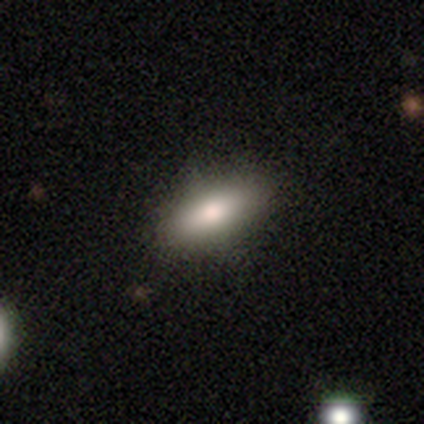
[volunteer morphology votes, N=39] smooth 77%, featured or disk 21%, star or artifact 3%. Down the decision tree: how rounded — in between (83%); merging — none (58%).